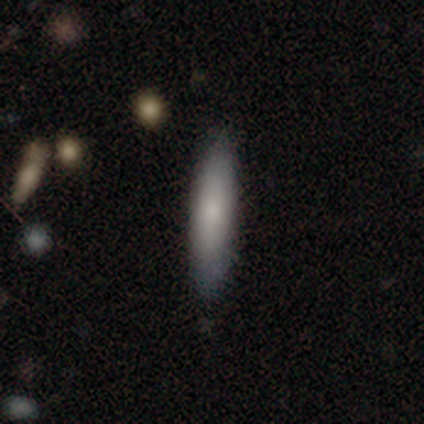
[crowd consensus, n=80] Smooth or featured? 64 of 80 (80%) said smooth. How rounded? 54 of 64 (84%) said cigar-shaped. Merging? 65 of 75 (87%) said none.